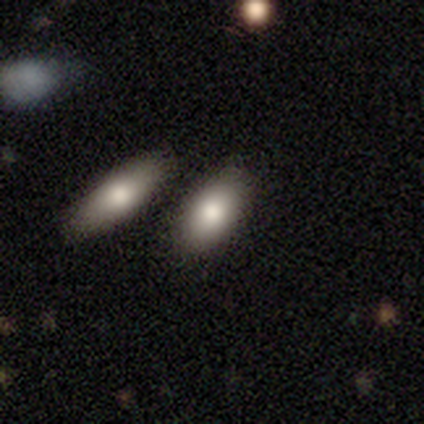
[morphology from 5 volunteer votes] A smooth galaxy with no disk features (60%) that is in between round and cigar-shaped (100%). Merging: none (100%).